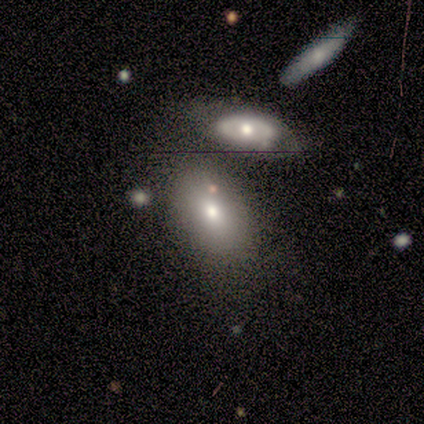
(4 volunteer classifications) Overall: smooth (75%). How rounded: in between (100%). Merging: none (67%; minor disturbance 33%).